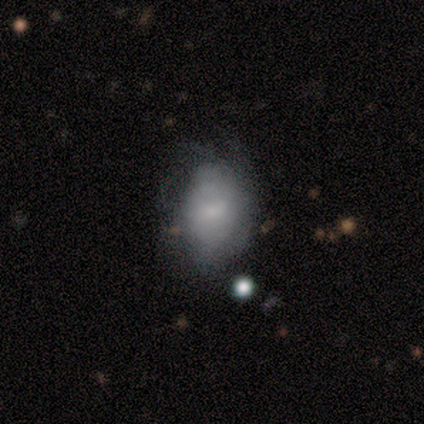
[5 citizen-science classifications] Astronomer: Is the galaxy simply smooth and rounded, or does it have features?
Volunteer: smooth — 60%.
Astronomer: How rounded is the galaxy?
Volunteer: in between — 100%.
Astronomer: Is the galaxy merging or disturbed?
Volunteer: none — 50%.